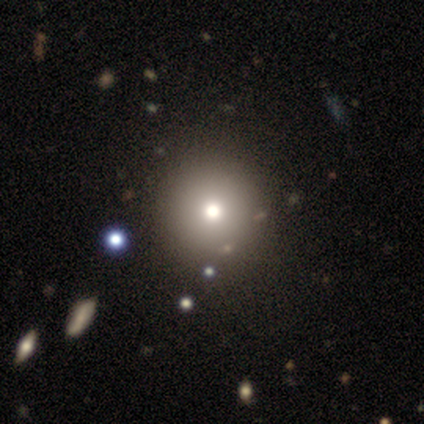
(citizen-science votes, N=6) Overall: smooth (50%; featured or disk 33%). How rounded: round (67%; in between 33%). Merging: none (80%).